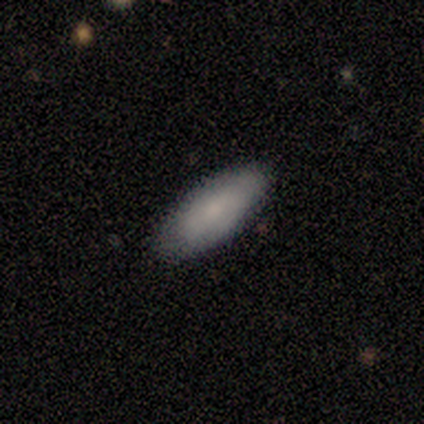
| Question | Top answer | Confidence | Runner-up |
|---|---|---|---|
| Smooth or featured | smooth | 60% | featured or disk (40%) |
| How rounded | in between | 100% | — |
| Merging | none | 80% | minor disturbance (20%) |